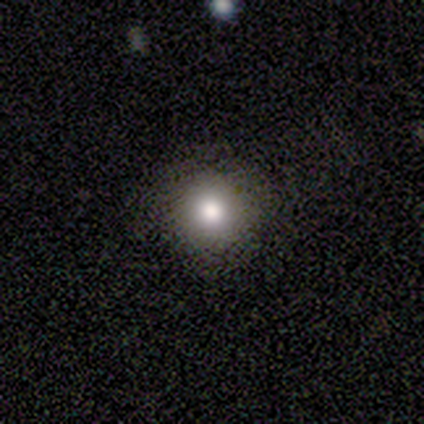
Q: Smooth or featured?
A: smooth (100%)
Q: How rounded?
A: round (67%); runner-up: in between (33%)
Q: Merging?
A: none (67%); runner-up: major disturbance (33%)